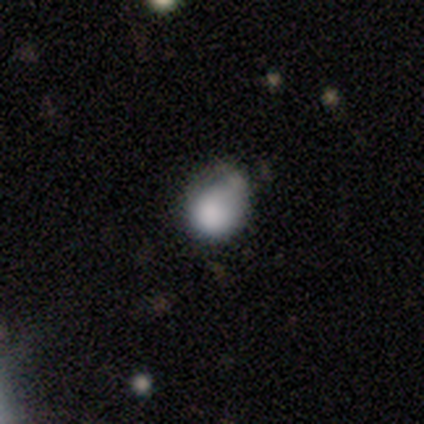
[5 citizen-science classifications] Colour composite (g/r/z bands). It shows a smooth galaxy with no disk features (100%) that is round (60%). Merging: minor disturbance (60%).